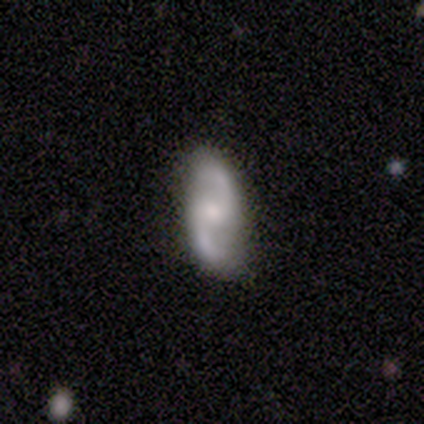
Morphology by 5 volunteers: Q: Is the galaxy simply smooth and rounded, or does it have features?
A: featured or disk — 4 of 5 (80%).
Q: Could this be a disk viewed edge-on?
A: no — 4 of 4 (100%).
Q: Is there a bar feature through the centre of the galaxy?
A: weak — 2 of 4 (50%, tied with no).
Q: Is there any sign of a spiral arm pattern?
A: yes — 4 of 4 (100%).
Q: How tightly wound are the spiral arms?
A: loose — 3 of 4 (75%).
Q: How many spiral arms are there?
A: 2 — 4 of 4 (100%).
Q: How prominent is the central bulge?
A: moderate — 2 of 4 (50%).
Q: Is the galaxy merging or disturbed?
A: none — 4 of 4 (100%).